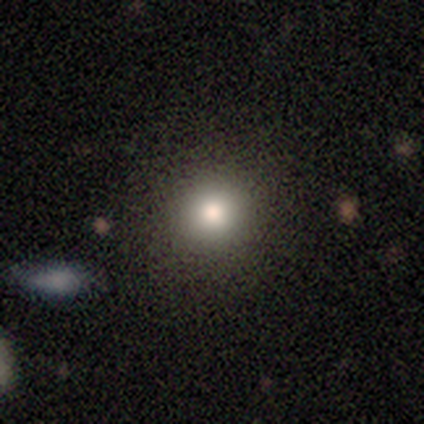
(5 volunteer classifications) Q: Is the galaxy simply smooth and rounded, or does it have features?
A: smooth — 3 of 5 (60%).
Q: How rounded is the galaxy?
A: round — 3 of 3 (100%).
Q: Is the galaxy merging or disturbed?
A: none — 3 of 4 (75%).